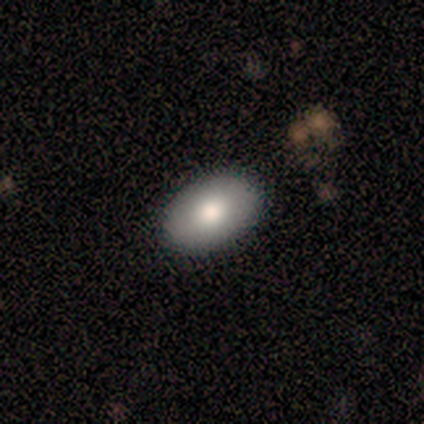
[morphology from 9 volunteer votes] Smooth or featured: smooth — 78% (featured or disk — 22%)
How rounded: in between — 71% (round — 29%)
Merging: none — 100%